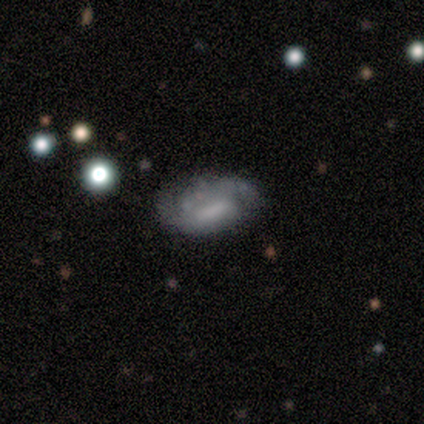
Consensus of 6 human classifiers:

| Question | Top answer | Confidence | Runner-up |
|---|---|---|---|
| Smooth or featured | smooth | 67% | featured or disk (33%) |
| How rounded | in between | 100% | — |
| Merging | none | 67% | minor disturbance (17%) |